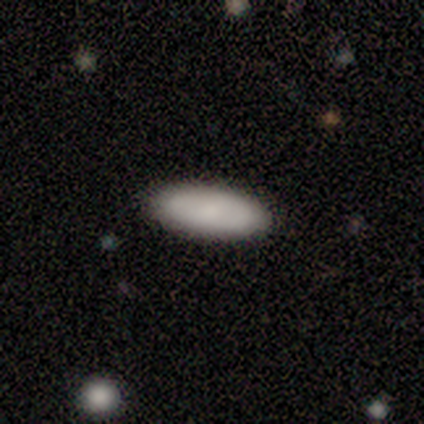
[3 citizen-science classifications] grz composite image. It shows a smooth galaxy with no disk features (100%) that is in between round and cigar-shaped (67%). Merging: none (67%).